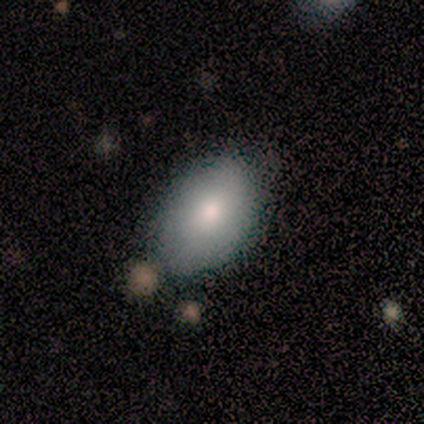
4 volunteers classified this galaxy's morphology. A smooth galaxy with no disk features (75%) that is in between round and cigar-shaped (100%).

Vote fractions:
- Smooth or featured? smooth: 75% / featured or disk: 25% / star or artifact: 0%
- How rounded? in between: 100% / round: 0% / cigar-shaped: 0%
- Merging? none: 50% (tied) / minor disturbance: 50% (tied) / major disturbance: 0% / merger: 0%